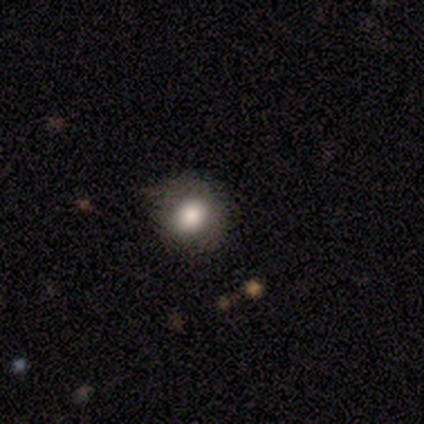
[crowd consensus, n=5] smooth_or_featured: smooth (p=1.00)
how_rounded: round (p=1.00)
merging: none (p=0.80) [alt: minor disturbance p=0.20]